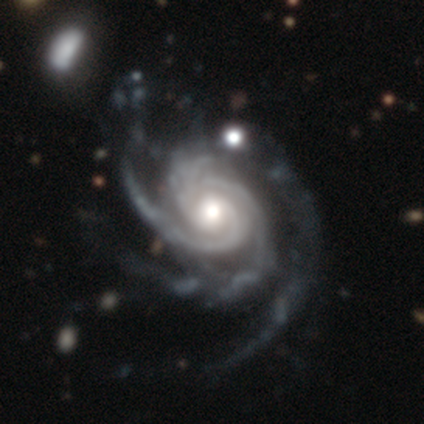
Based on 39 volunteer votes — smooth-or-featured: featured or disk: 92% | star or artifact: 5% | smooth: 3%
  disk-edge-on: no: 100% | yes: 0%
    bar: no: 69% | weak: 28% | strong: 3%
    has-spiral-arms: yes: 100% | no: 0%
      spiral-winding: tight: 69% | medium: 22% | loose: 8%
      spiral-arm-count: 3: 72% | 4: 11% | can't tell: 8% | more than 4: 6% | 2: 3% | 1: 0%
    bulge-size: moderate: 58% | large: 19% | small: 17% | dominant: 6% | none: 0%
  merging: none: 51% | minor disturbance: 35% | major disturbance: 14% | merger: 0%